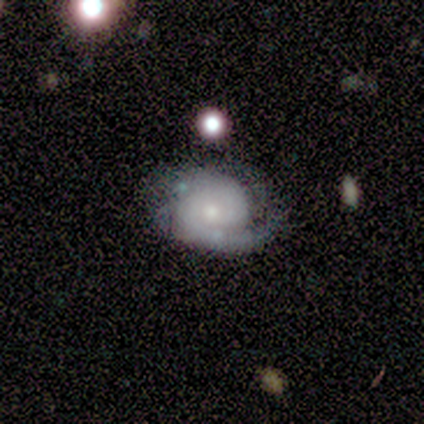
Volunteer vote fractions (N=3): Overall: featured or disk (100%). Edge-on disk: no (100%). Bar: no (67%; strong 33%). Spiral arms: yes (100%). Spiral arm count: 2 (100%). Spiral winding: tight (67%; medium 33%). Bulge size: small (100%). Merging: none (67%; minor disturbance 33%).